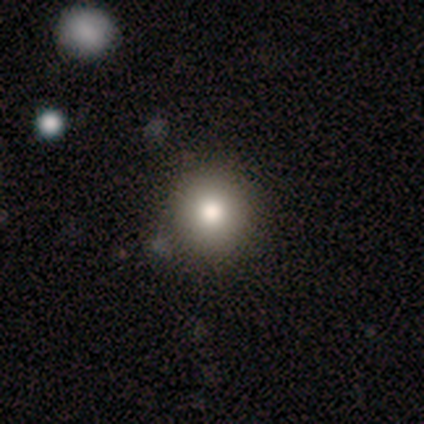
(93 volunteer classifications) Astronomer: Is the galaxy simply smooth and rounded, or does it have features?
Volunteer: smooth — 78%.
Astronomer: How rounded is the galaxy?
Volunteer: round — 95%.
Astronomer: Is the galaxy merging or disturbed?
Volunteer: none — 88%.